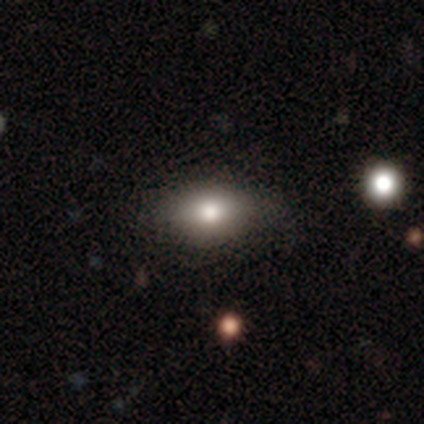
Morphology: type=smooth (78%); roundness=in between (70%); merging=none (51%).